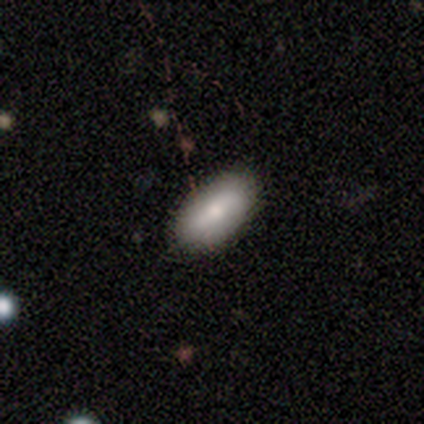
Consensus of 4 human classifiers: Smooth or featured: smooth — 100%
How rounded: in between — 100%
Merging: none — 50% (minor disturbance — 25%)